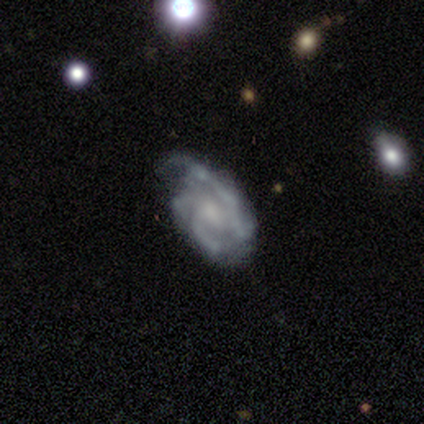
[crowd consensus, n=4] Morphology: type=featured or disk (75%); edge-on=no (100%); bar=no (67%); spiral arms=yes (100%); winding=medium (67%); arm count=2 (67%); bulge=moderate (67%); merging=none (50%).